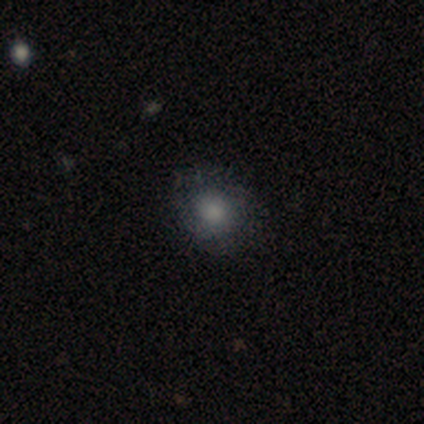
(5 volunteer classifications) Smooth or featured: smooth — 60% (featured or disk — 40%)
How rounded: round — 67% (in between — 33%)
Merging: none — 80% (minor disturbance — 20%)